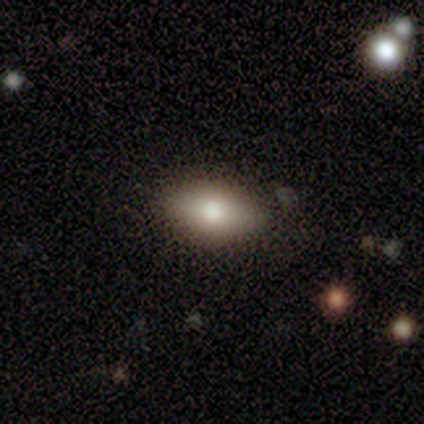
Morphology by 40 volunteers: This appears to be a smooth galaxy with no disk features (80%) that is in between round and cigar-shaped (97%). Merging: none (70%).